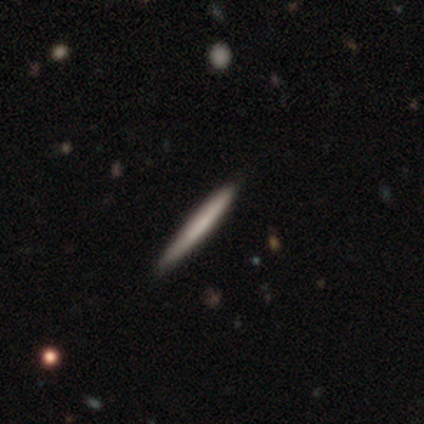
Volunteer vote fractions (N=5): Morphology: type=smooth (100%); roundness=cigar-shaped (100%); merging=none (80%).